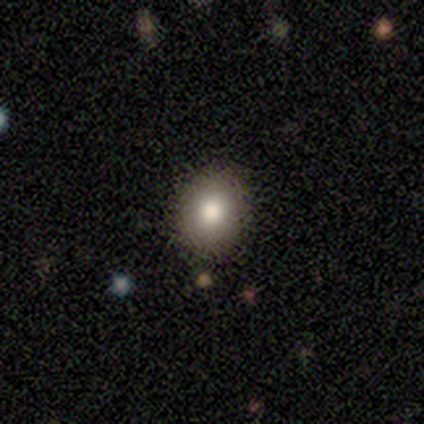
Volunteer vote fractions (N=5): Volunteers were most divided on "how rounded" (2-way tie): round: 50%, in between: 50%, cigar-shaped: 0%. More confident: merging — none (100%); smooth or featured — smooth (80%).